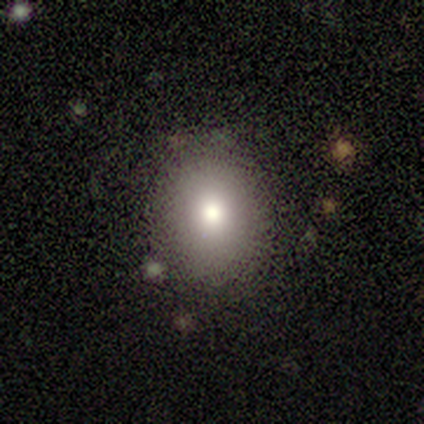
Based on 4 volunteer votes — A smooth galaxy with no disk features (75%) that is in between round and cigar-shaped (67%).

Vote fractions:
- Smooth or featured? smooth: 75% / featured or disk: 25% / star or artifact: 0%
- How rounded? in between: 67% / round: 33% / cigar-shaped: 0%
- Merging? none: 100% / minor disturbance: 0% / major disturbance: 0% / merger: 0%